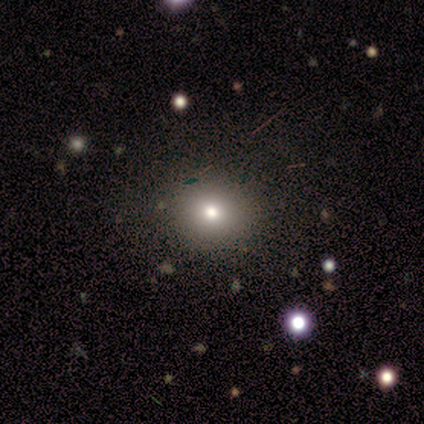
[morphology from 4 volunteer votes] type=smooth (75%); roundness=in between (67%); merging=none (100%).